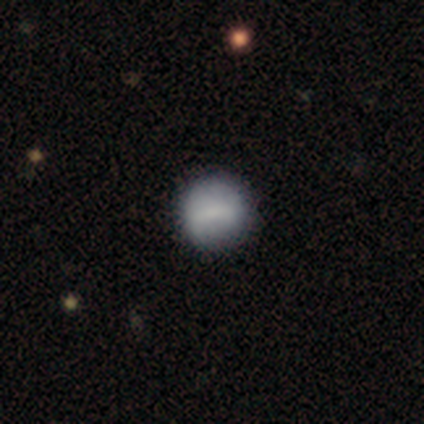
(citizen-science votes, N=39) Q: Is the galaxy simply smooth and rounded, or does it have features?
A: smooth — 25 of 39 (64%).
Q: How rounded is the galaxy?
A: round — 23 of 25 (92%).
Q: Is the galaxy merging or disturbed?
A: none — 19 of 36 (53%).